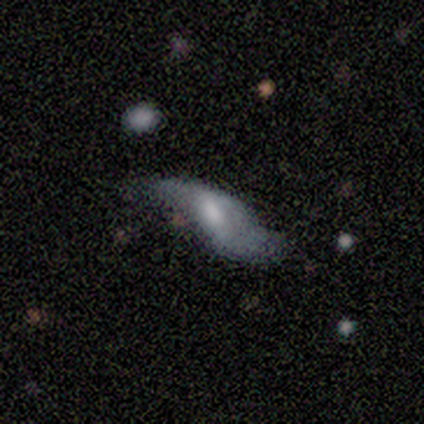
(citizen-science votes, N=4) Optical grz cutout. It shows a smooth galaxy with no disk features (75%) that is in between round and cigar-shaped (67%). Merging: minor disturbance (50%).